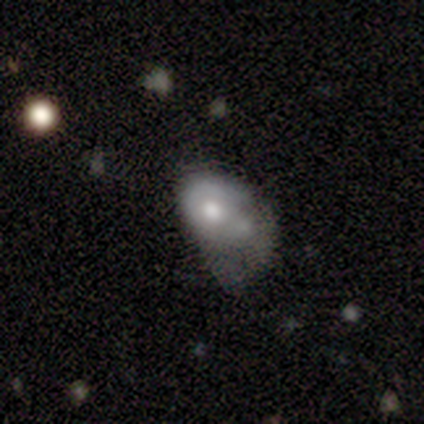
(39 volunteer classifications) This is possibly a smooth galaxy (54%). How rounded: likely in between (71%). Merging: possibly major disturbance (57%).